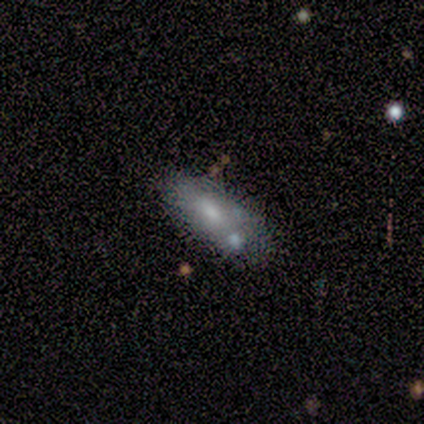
A smooth galaxy with no disk features (60%) that is in between round and cigar-shaped (100%). Merging: minor disturbance (60%).